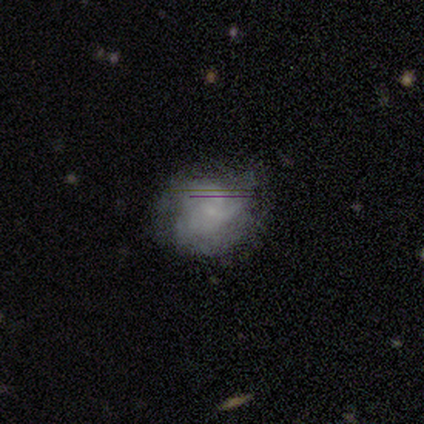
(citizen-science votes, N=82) Q: Smooth or featured?
A: smooth (43%); tied with: featured or disk (43%)
Q: How rounded?
A: round (74%); runner-up: in between (26%)
Q: Merging?
A: none (59%); runner-up: minor disturbance (29%)